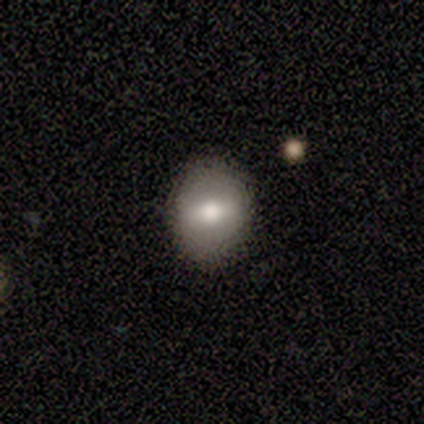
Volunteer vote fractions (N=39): Morphology: type=smooth (54%); roundness=in between (62%); merging=none (88%).